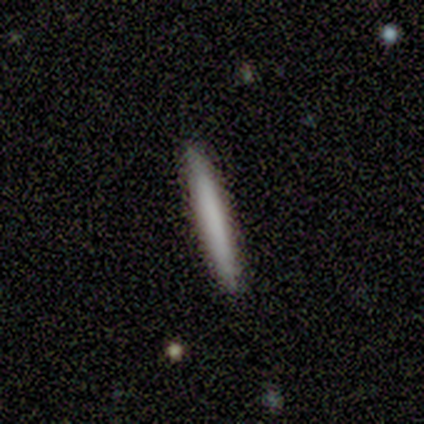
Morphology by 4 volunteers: A smooth galaxy with no disk features (75%) that is cigar-shaped (100%). Merging: none (100%).